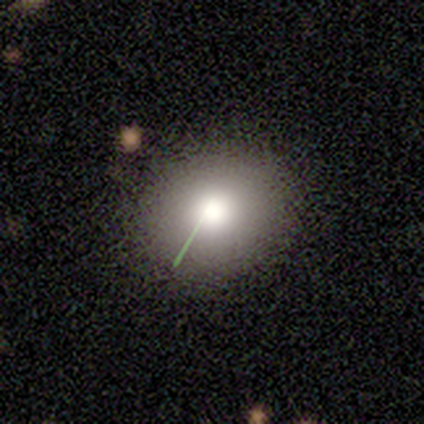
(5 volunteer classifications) This appears to be a smooth galaxy with no disk features (40%, tied with featured or disk) that is round (100%). Merging: none (50%).